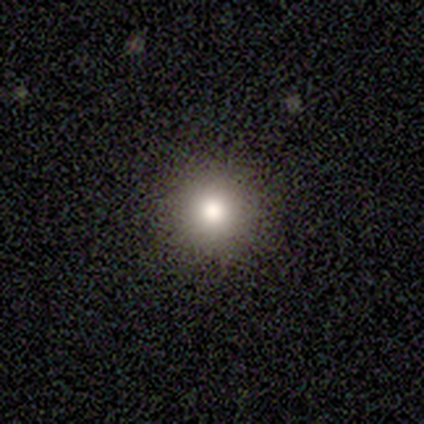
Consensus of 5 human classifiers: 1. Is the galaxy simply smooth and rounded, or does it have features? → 80% smooth, 20% star or artifact, 0% featured or disk.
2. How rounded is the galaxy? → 100% round, 0% in between, 0% cigar-shaped.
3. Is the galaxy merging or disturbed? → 100% none, 0% minor disturbance, 0% major disturbance, 0% merger.